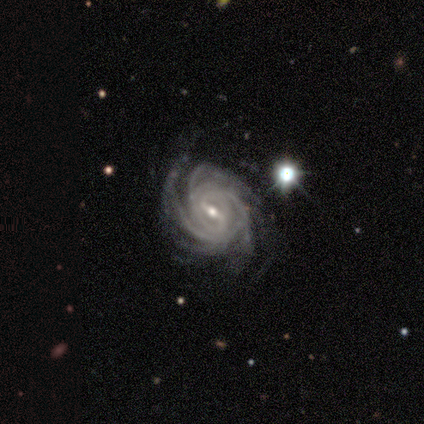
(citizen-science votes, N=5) This is clearly a featured or disk galaxy (100%). It is clearly not viewed edge-on (80%). Bar: likely strong (75%). Spiral arm pattern: clearly yes (100%). Spiral arm count: possibly can't tell (50%). Spiral winding: clearly tight (100%). Central bulge: likely small (75%). Merging: marginally none (40%, tied with minor disturbance).